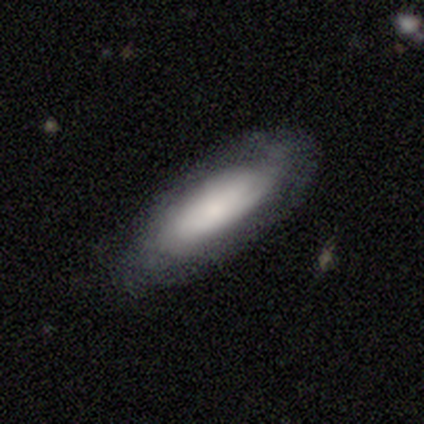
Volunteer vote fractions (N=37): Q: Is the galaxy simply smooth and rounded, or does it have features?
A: smooth — 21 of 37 (57%).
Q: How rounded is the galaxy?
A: in between — 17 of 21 (81%).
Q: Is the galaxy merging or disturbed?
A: none — 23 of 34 (68%).